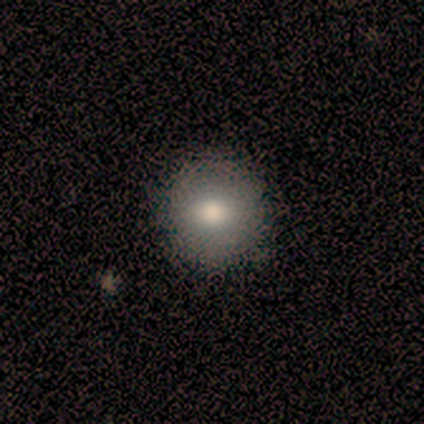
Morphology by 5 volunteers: smooth_or_featured: smooth (p=0.80) [alt: featured or disk p=0.20]
how_rounded: round (p=1.00)
merging: none (p=0.80) [alt: minor disturbance p=0.20]